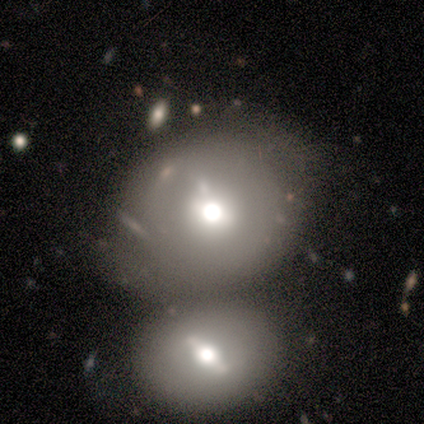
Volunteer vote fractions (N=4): This is clearly a smooth galaxy (100%). How rounded: likely round (75%). Merging: marginally none (25%, tied with minor disturbance, major disturbance and merger).